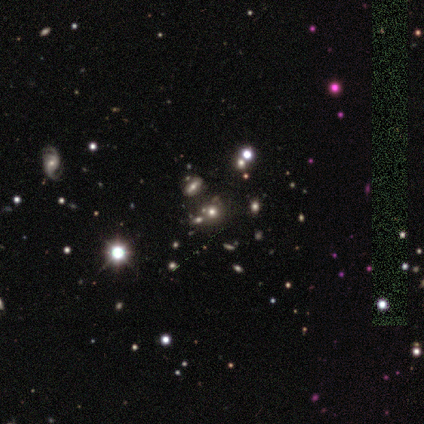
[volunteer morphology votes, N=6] Smooth or featured? smooth (67%)
How rounded? round (100%)
Merging? none (100%)